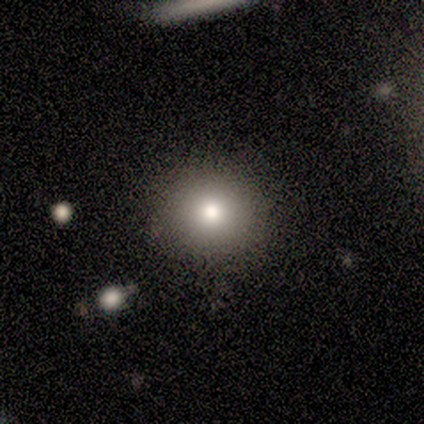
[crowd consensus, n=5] A smooth galaxy with no disk features (60%) that is round (100%).

Vote fractions:
- Smooth or featured? smooth: 60% / star or artifact: 40% / featured or disk: 0%
- How rounded? round: 100% / in between: 0% / cigar-shaped: 0%
- Merging? minor disturbance: 67% / none: 33% / major disturbance: 0% / merger: 0%